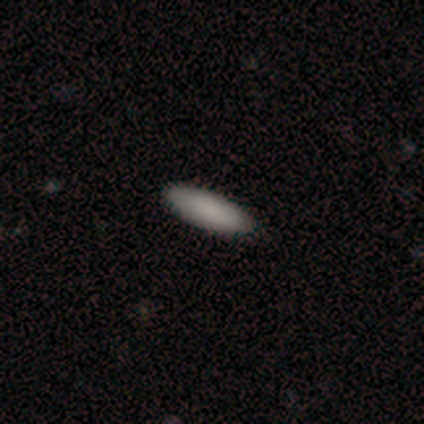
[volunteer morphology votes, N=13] Smooth or featured: smooth — 92% (featured or disk — 8%)
How rounded: cigar-shaped — 67% (in between — 33%)
Merging: none — 85% (minor disturbance — 8%)